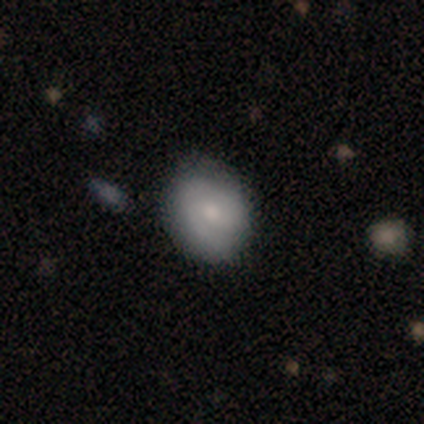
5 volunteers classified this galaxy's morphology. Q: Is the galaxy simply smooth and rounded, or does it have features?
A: smooth — 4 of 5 (80%).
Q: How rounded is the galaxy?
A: in between — 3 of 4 (75%).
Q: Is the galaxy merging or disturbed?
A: none — 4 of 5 (80%).